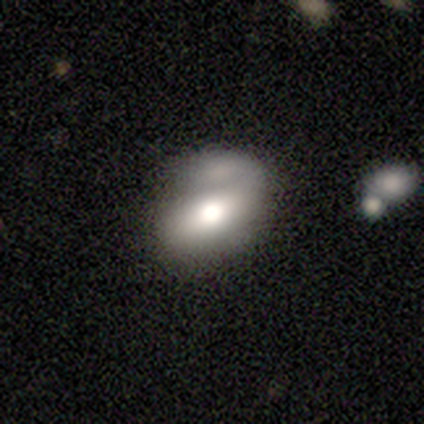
Q: Smooth or featured?
A: smooth (88%); runner-up: featured or disk (12%)
Q: How rounded?
A: in between (86%); runner-up: round (14%)
Q: Merging?
A: none (50%); tied with: merger (50%)